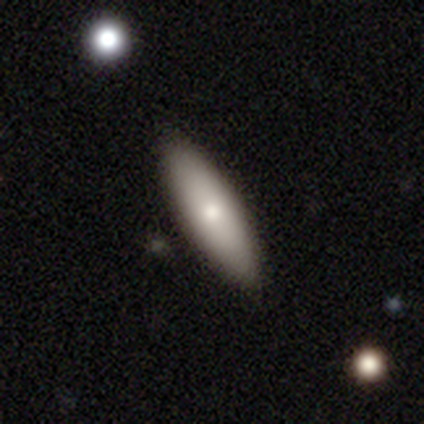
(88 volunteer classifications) Volunteers were most divided on "how rounded": cigar-shaped: 56%, in between: 42%, round: 2%. More confident: merging — none (93%); smooth or featured — smooth (73%).